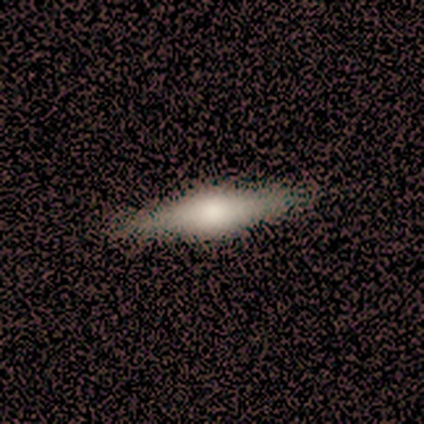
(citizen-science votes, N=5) This is clearly a featured or disk galaxy (80%). It is clearly viewed edge-on (100%). Edge-on bulge: clearly rounded (100%). Merging: clearly none (100%).